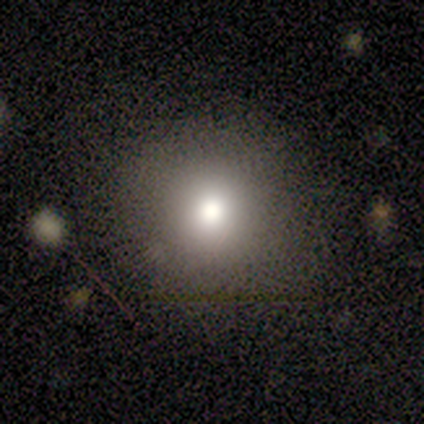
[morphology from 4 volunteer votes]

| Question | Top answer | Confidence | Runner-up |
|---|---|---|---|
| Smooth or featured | smooth | 100% | — |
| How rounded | round | 75% | in between (25%) |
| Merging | none | 100% | — |